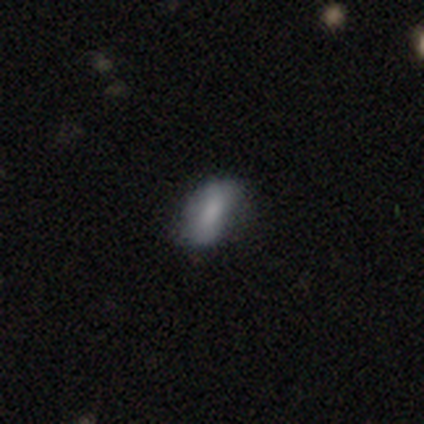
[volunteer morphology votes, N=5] Smooth or featured? smooth (60%)
How rounded? in between (100%)
Merging? none (100%)